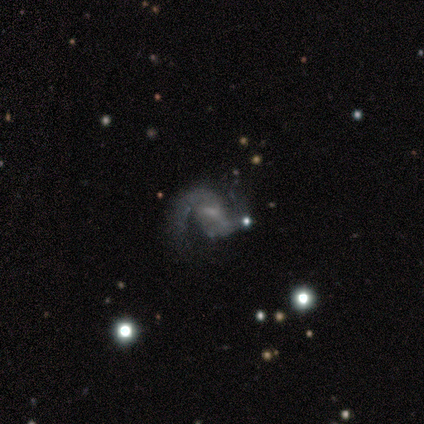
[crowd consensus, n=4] A featured or disk galaxy (75%) with a strong bar (33%, tied with weak and no), 2 (100%) medium (100%) spiral arms (100%) and a small central bulge (67%). Merging: minor disturbance (75%).